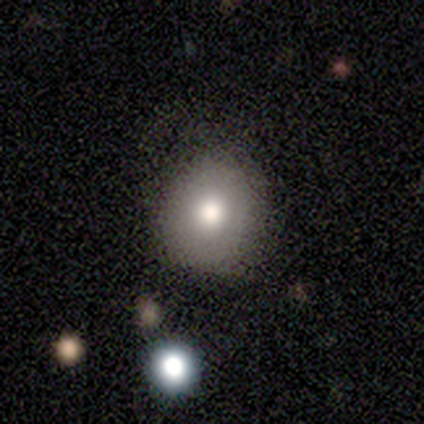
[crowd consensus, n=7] smooth 71%, star or artifact 29%, featured or disk 0%. Down the decision tree: how rounded — round (60%); merging — none (80%).